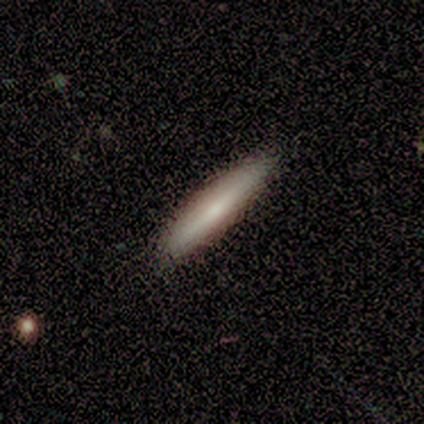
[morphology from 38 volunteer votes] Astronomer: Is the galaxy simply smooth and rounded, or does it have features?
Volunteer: smooth — 61% (runner-up: featured or disk, 37%).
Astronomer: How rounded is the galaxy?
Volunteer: cigar-shaped — 96%.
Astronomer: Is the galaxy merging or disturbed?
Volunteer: none — 57%.